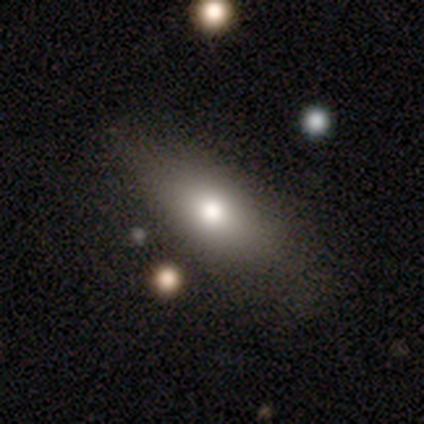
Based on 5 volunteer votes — Volunteers were most divided on "how rounded": in between: 60%, round: 20%, cigar-shaped: 20%. More confident: smooth or featured — smooth (100%); merging — none (60%).